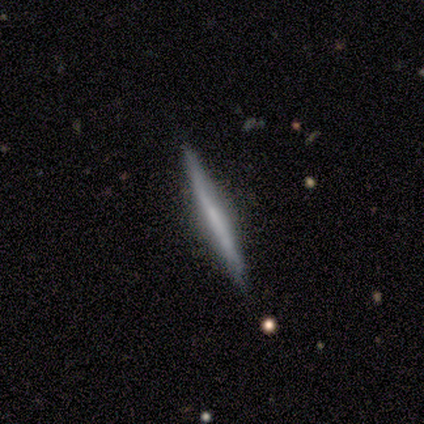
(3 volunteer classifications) Smooth or featured? 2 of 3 (67%) said smooth. How rounded? 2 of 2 (100%) said cigar-shaped. Merging? 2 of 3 (67%) said none.